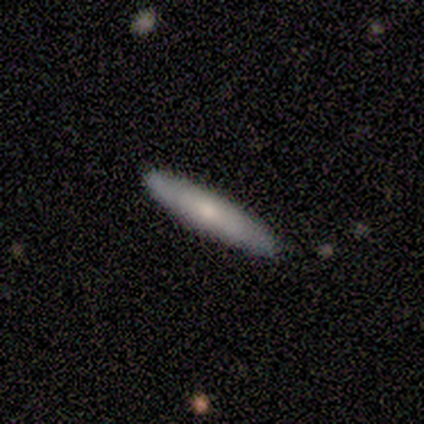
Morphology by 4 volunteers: A smooth galaxy with no disk features (75%) that is cigar-shaped (100%). Merging: none (100%).